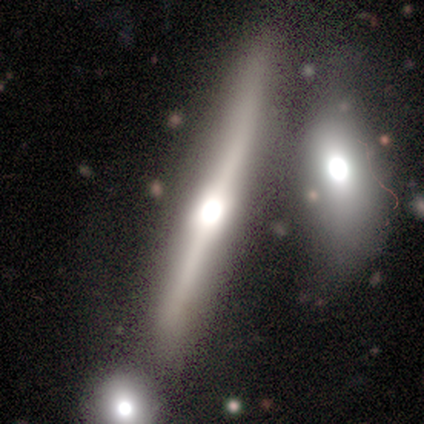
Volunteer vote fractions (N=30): smooth-or-featured: smooth: 60% | featured or disk: 30% | star or artifact: 10%
  how-rounded: cigar-shaped: 94% | in between: 6% | round: 0%
  merging: merger: 63% | none: 7% | minor disturbance: 4% | major disturbance: 0%